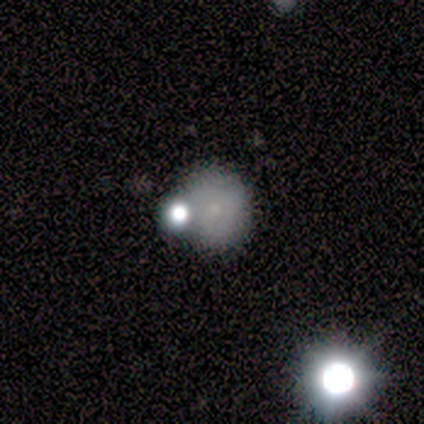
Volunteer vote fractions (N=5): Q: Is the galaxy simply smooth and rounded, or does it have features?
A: smooth — 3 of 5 (60%).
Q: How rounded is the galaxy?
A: round — 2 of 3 (67%).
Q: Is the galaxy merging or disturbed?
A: major disturbance — 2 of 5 (40%).